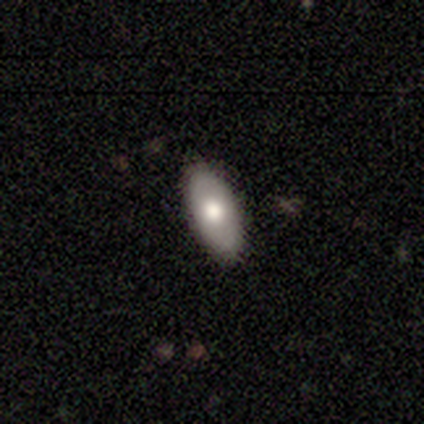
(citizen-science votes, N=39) Volunteers were most divided on "smooth or featured": smooth: 69%, featured or disk: 23%, star or artifact: 8%. More confident: merging — none (89%); how rounded — in between (89%).